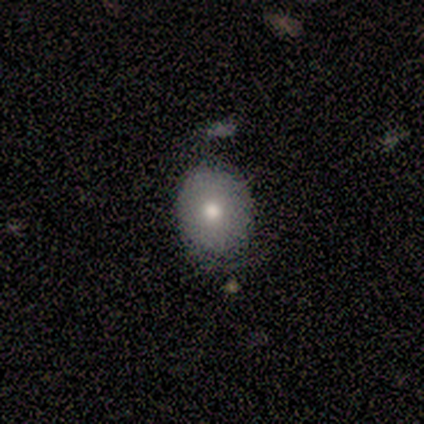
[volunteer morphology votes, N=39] smooth_or_featured: smooth (p=0.79) [alt: featured or disk p=0.15]
how_rounded: round (p=0.55) [alt: in between p=0.42]
merging: none (p=0.73) [alt: minor disturbance p=0.27]